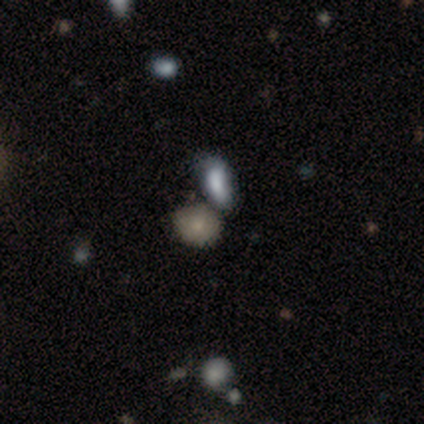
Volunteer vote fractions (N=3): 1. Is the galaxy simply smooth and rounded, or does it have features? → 67% smooth, 33% star or artifact, 0% featured or disk.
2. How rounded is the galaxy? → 100% round, 0% in between, 0% cigar-shaped.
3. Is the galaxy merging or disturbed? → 100% none, 0% minor disturbance, 0% major disturbance, 0% merger.